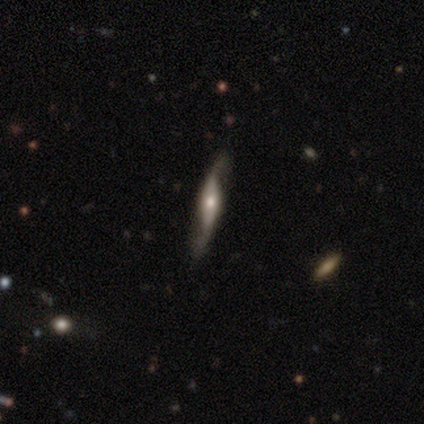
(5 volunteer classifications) Smooth or featured: featured or disk — 80% (star or artifact — 20%)
Edge-on disk: no — 75% (yes — 25%)
Bar: strong — 33% (tied with weak — 33%; no — 33%)
Spiral arms: yes — 100%
Spiral winding: loose — 67% (medium — 33%)
Spiral arm count: 2 — 100%
Bulge size: large — 33% (tied with moderate — 33%; small — 33%)
Merging: none — 100%